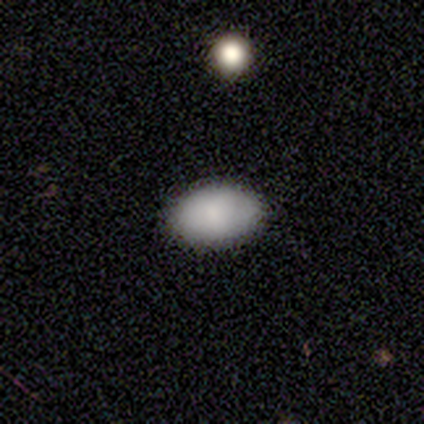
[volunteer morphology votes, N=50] smooth-or-featured: smooth: 80% | featured or disk: 16% | star or artifact: 4%
  how-rounded: in between: 95% | round: 2% | cigar-shaped: 2%
  merging: none: 83% | minor disturbance: 17% | major disturbance: 0% | merger: 0%